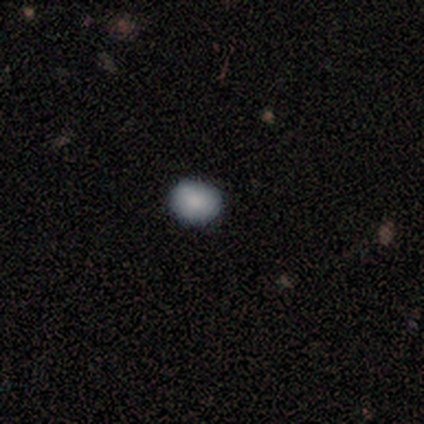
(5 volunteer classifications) A smooth galaxy with no disk features (80%) that is round (75%).

Vote fractions:
- Smooth or featured? smooth: 80% / star or artifact: 20% / featured or disk: 0%
- How rounded? round: 75% / in between: 25% / cigar-shaped: 0%
- Merging? none: 100% / minor disturbance: 0% / major disturbance: 0% / merger: 0%